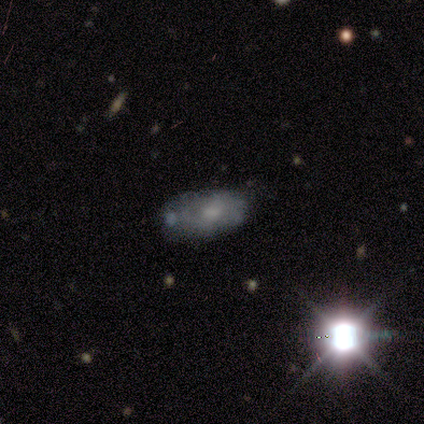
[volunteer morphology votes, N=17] Q: Smooth or featured?
A: featured or disk (41%); runner-up: star or artifact (35%)
Q: Edge-on disk?
A: no (100%)
Q: Bar?
A: no (100%)
Q: Spiral arms?
A: no (71%); runner-up: yes (29%)
Q: Bulge size?
A: moderate (43%); tied with: small (43%)
Q: Merging?
A: minor disturbance (55%); runner-up: none (27%)